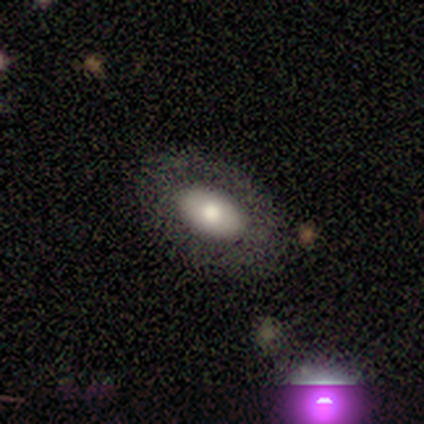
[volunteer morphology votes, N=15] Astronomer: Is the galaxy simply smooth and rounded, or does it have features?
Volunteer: smooth — 60% (runner-up: featured or disk, 40%).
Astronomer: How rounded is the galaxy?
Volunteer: in between — 100%.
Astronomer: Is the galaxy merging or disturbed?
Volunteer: none — 93%.